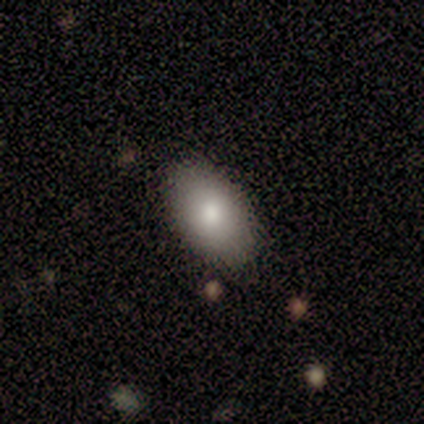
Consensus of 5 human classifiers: Smooth or featured? smooth (80%)
How rounded? in between (100%)
Merging? none (100%)